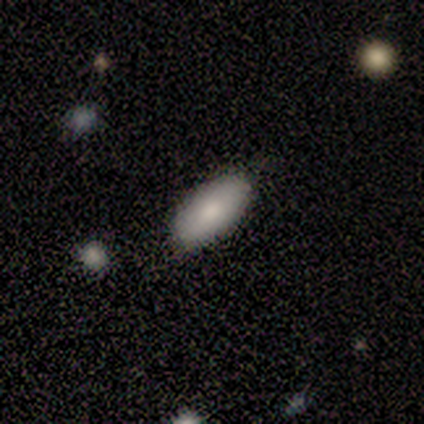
Overall: smooth (100%). How rounded: in between (80%). Merging: none (100%).